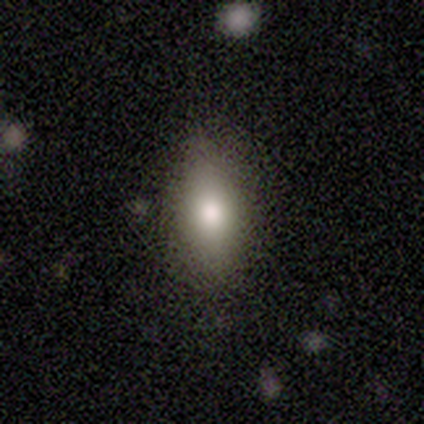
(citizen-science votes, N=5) Smooth or featured: smooth — 60% (featured or disk — 20%)
How rounded: in between — 100%
Merging: none — 100%